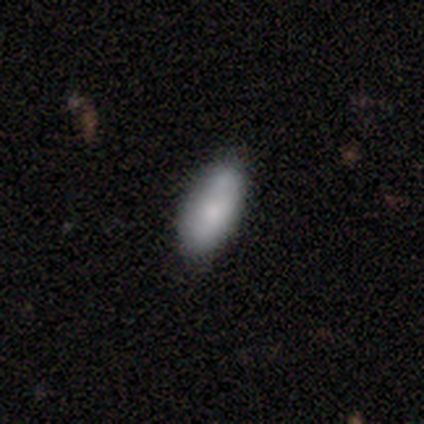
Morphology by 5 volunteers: Smooth or featured?
  - smooth: 100% *
  - featured or disk: 0%
  - star or artifact: 0%
How rounded?
  - in between: 100% *
  - round: 0%
  - cigar-shaped: 0%
Merging?
  - none: 60% *
  - minor disturbance: 40%
  - major disturbance: 0%
  - merger: 0%